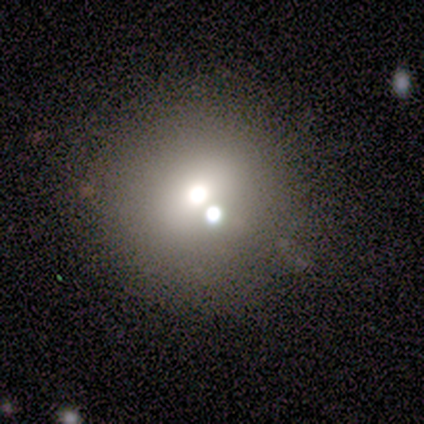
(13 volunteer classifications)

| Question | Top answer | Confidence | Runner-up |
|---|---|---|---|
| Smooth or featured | smooth | 77% | star or artifact (15%) |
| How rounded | round | 100% | — |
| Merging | none | 82% | merger (18%) |